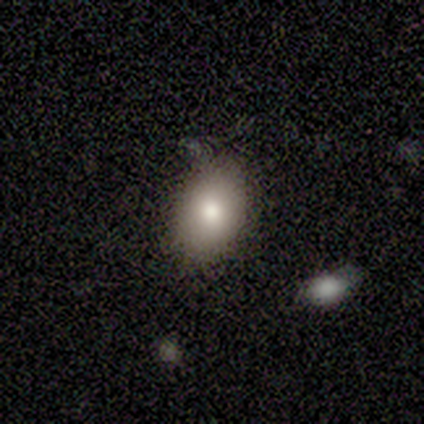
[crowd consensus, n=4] smooth_or_featured: smooth (p=0.75) [alt: featured or disk p=0.25]
how_rounded: in between (p=0.67) [alt: round p=0.33]
merging: none (p=1.00)